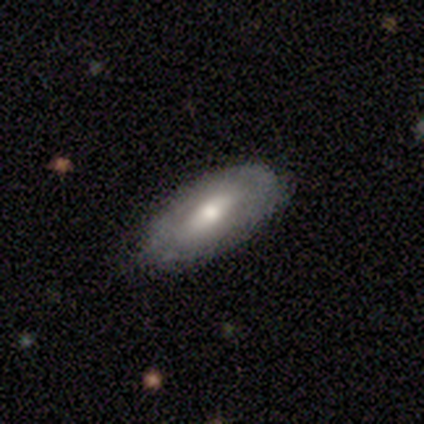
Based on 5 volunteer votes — This is clearly a smooth galaxy (80%). How rounded: clearly in between (100%). Merging: clearly none (100%).